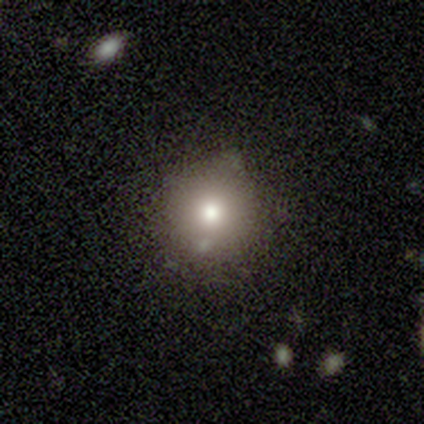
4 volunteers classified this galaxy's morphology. smooth 100%, featured or disk 0%, star or artifact 0%. Down the decision tree: how rounded — round (100%); merging — none (100%).